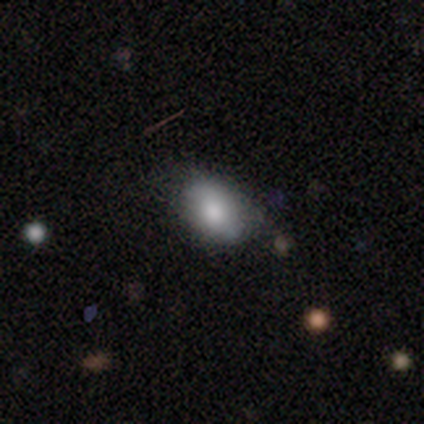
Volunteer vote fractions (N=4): Q: Smooth or featured?
A: smooth (100%)
Q: How rounded?
A: in between (100%)
Q: Merging?
A: none (50%); tied with: minor disturbance (50%)